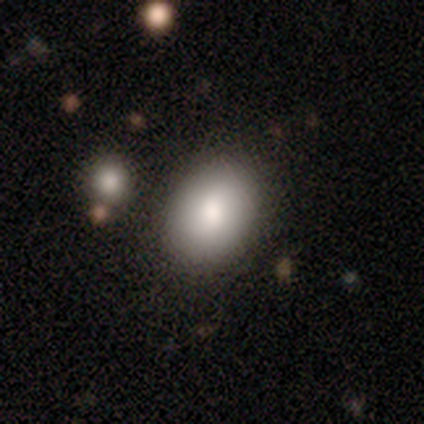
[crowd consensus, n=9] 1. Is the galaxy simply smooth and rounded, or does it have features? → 100% smooth, 0% featured or disk, 0% star or artifact.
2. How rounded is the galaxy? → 67% in between, 33% round, 0% cigar-shaped.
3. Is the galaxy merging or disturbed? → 100% none, 0% minor disturbance, 0% major disturbance, 0% merger.